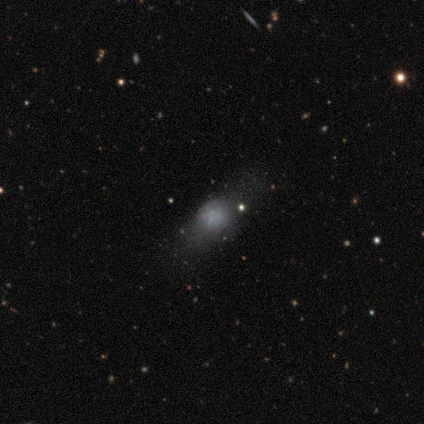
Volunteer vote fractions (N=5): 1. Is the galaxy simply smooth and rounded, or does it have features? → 40% smooth (tied), 40% featured or disk (tied), 20% star or artifact.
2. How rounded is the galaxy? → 50% round (tied), 50% in between (tied), 0% cigar-shaped.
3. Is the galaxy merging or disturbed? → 50% none (tied), 50% minor disturbance (tied), 0% major disturbance, 0% merger.